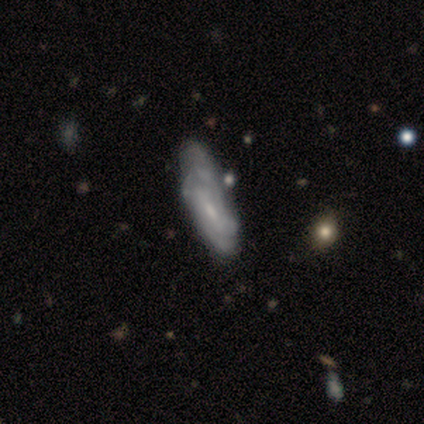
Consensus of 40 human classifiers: featured or disk 65%, smooth 28%, star or artifact 8%. Down the decision tree: edge-on disk — no (88%); bar — weak (61%); spiral arms — yes (70%); spiral arm count — can't tell (44%); spiral winding — tight (44%, tied with medium); bulge size — small (74%); merging — none (19%).